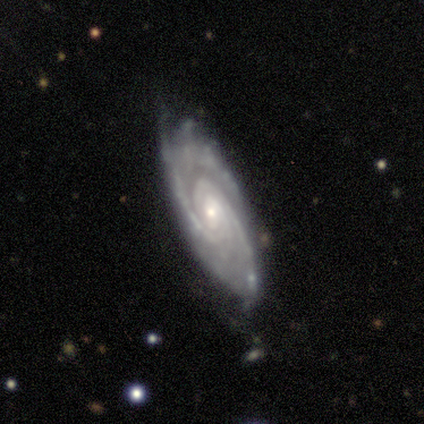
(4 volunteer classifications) A featured or disk galaxy (75%) with no bar (67%), tight (67%) spiral arms (100%) and a small central bulge (67%). Merging: none (67%).